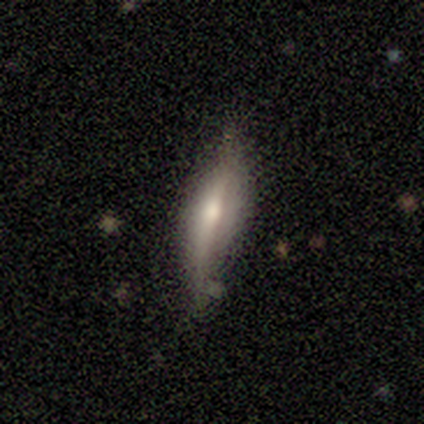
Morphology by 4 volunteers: Overall: smooth (75%). How rounded: cigar-shaped (67%; in between 33%). Merging: none (75%).